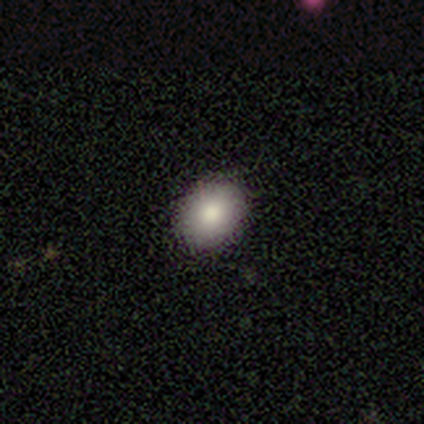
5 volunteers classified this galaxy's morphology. smooth 100%, featured or disk 0%, star or artifact 0%. Down the decision tree: how rounded — in between (60%); merging — none (80%).